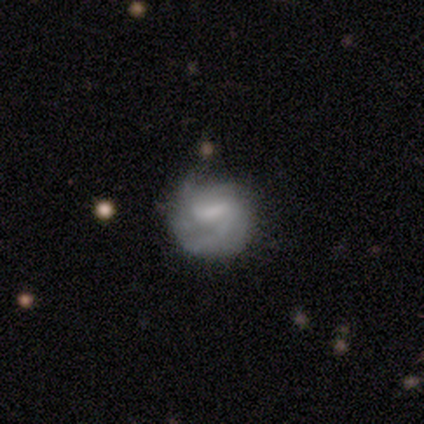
This appears to be a featured or disk galaxy (60%) with a weak bar (62%), medium (44%) spiral arms (75%) and a small central bulge (46%). Merging: none (46%).